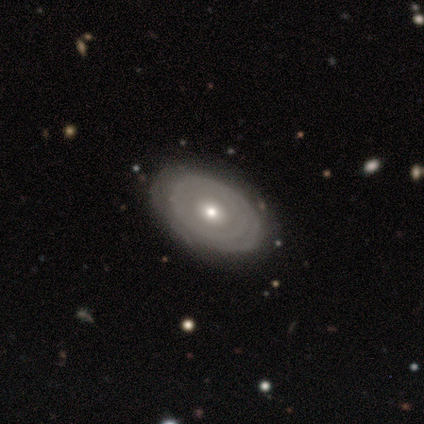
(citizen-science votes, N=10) This appears to be a featured or disk galaxy (70%) with no bar (100%), no spiral arms (57%) and a moderate central bulge (57%). Merging: none (90%).